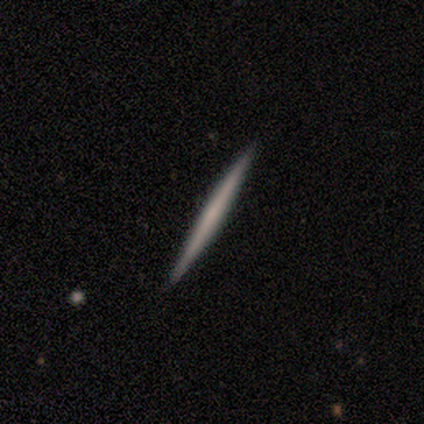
Volunteers were most divided on "smooth or featured": smooth: 60%, featured or disk: 40%, star or artifact: 0%. More confident: how rounded — cigar-shaped (100%); merging — none (100%).